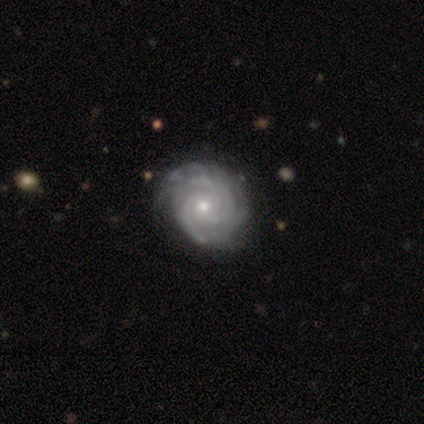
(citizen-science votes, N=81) Smooth or featured: featured or disk — 91% (smooth — 5%)
Edge-on disk: no — 100%
Bar: no — 84% (weak — 12%)
Spiral arms: yes — 97% (no — 3%)
Spiral winding: tight — 90% (medium — 10%)
Spiral arm count: 3 — 51% (4 — 15%)
Bulge size: moderate — 54% (small — 46%)
Merging: none — 74% (minor disturbance — 21%)